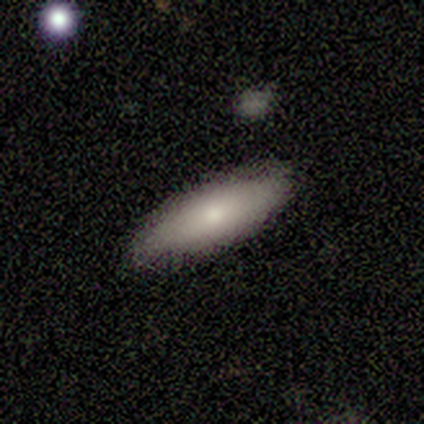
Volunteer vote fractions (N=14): This appears to be a smooth galaxy with no disk features (71%) that is in between round and cigar-shaped (50%, tied with cigar-shaped). Merging: none (92%).